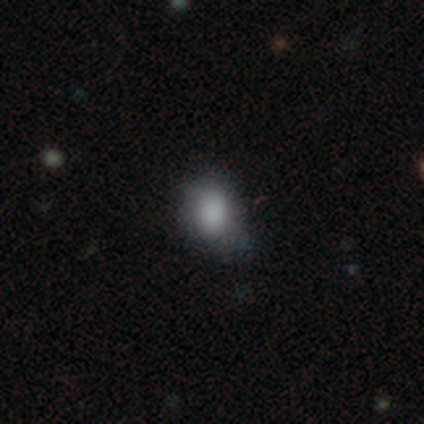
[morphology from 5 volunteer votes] type=smooth (80%); roundness=in between (75%); merging=none (80%).